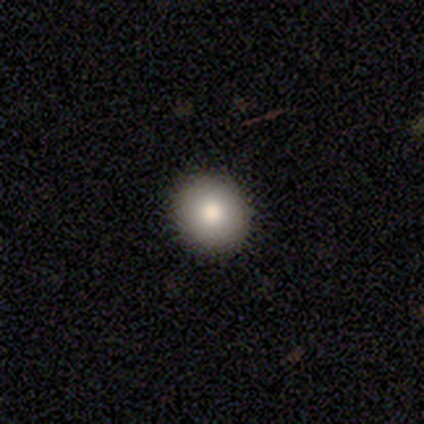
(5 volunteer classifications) smooth_or_featured: smooth (p=0.80) [alt: star or artifact p=0.20]
how_rounded: round (p=0.75) [alt: in between p=0.25]
merging: none (p=1.00)